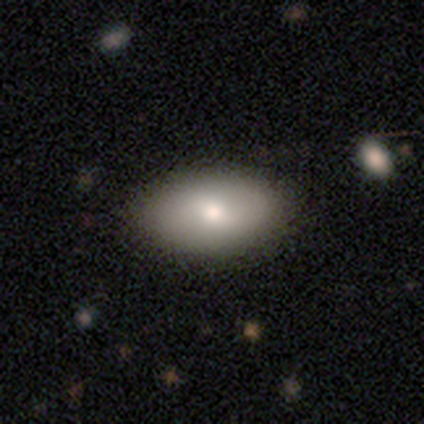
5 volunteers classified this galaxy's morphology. Smooth or featured? 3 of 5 (60%) said featured or disk. Edge-on disk? 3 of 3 (100%) said no. Bar? 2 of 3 (67%) said no. Spiral arms? 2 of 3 (67%) said no. Bulge size? 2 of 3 (67%) said moderate. Merging? 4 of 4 (100%) said none.